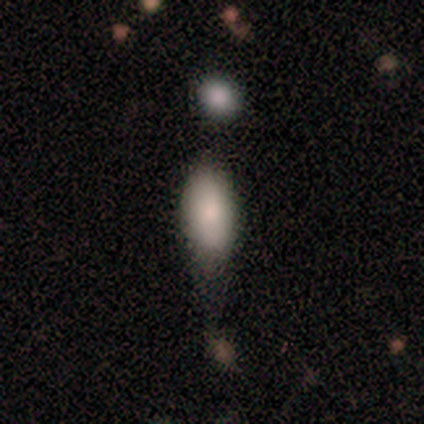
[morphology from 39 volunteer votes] This is clearly a smooth galaxy (85%). How rounded: clearly in between (88%). Merging: marginally none (42%, tied with minor disturbance).